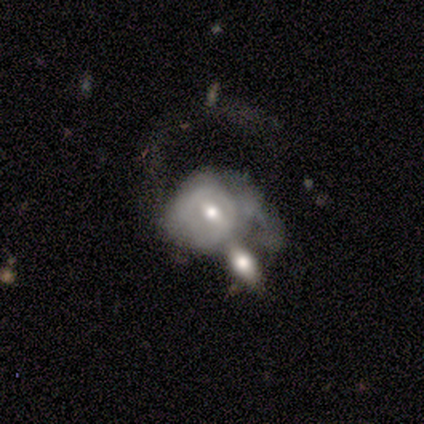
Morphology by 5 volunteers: Smooth or featured? 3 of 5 (60%) said smooth. How rounded? 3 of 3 (100%) said in between. Merging? 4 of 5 (80%) said merger.